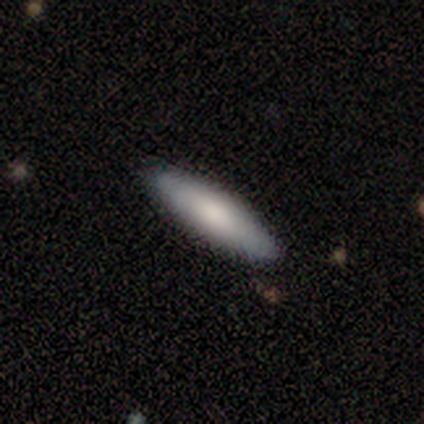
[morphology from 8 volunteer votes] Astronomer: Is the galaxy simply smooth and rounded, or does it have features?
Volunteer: smooth — 75%.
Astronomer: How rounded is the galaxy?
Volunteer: cigar-shaped — 83%.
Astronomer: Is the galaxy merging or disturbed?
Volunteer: none — 100%.